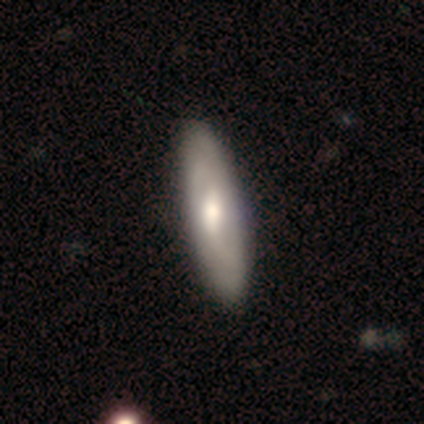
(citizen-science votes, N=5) Smooth or featured? featured or disk (80%)
Edge-on disk? no (100%)
Bar? weak (75%)
Spiral arms? yes (100%)
Spiral winding? tight (50%)
Spiral arm count? can't tell (75%)
Bulge size? moderate (75%)
Merging? none (60%)